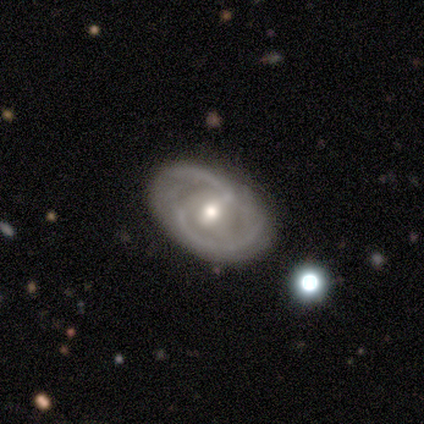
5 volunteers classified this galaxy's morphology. featured or disk 80%, smooth 20%, star or artifact 0%. Down the decision tree: edge-on disk — no (100%); bar — weak (100%); spiral arms — yes (75%); spiral arm count — 2 (67%); spiral winding — medium (100%); bulge size — dominant (25%, tied with large, moderate and small); merging — none (80%).